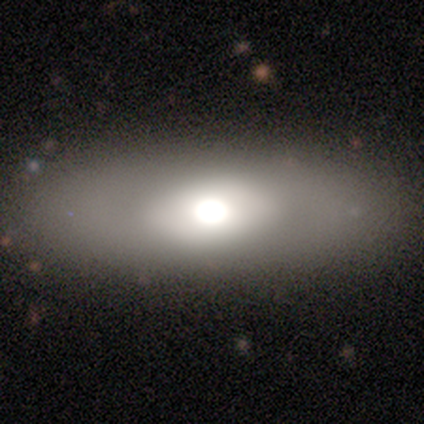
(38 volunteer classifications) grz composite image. It shows a smooth galaxy with no disk features (66%) that is in between round and cigar-shaped (76%). Merging: none (72%).